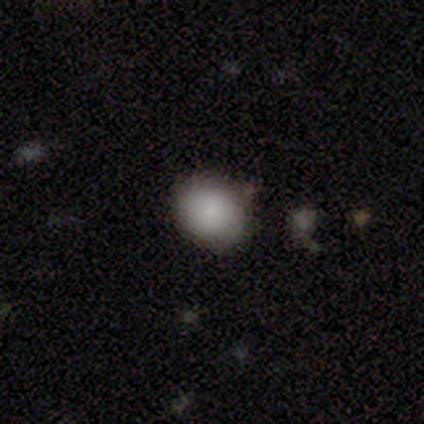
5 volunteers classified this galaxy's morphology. Smooth or featured: smooth — 80% (featured or disk — 20%)
How rounded: in between — 75% (round — 25%)
Merging: none — 100%